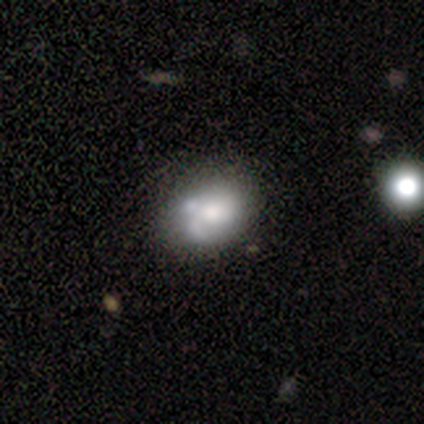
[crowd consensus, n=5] Overall: smooth (100%). How rounded: in between (100%). Merging: minor disturbance (40%; none 20%).